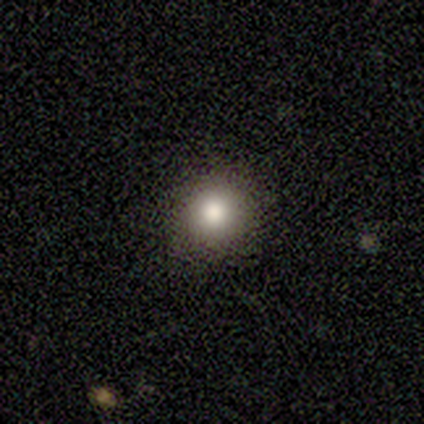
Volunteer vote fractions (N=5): Volunteers were most divided on "smooth or featured": smooth: 60%, featured or disk: 20%, star or artifact: 20%. More confident: how rounded — round (100%); merging — none (100%).